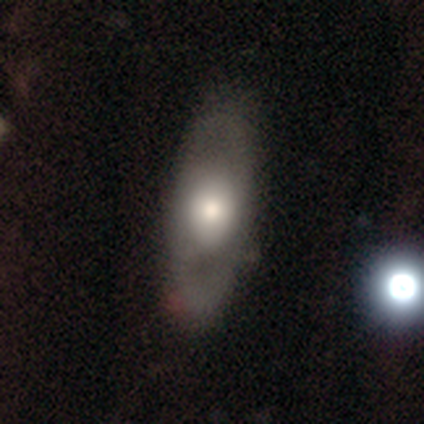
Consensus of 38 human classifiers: Smooth or featured? featured or disk (50%)
Edge-on disk? no (84%)
Bar? no (94%)
Spiral arms? no (75%)
Bulge size? moderate (69%)
Merging? none (92%)